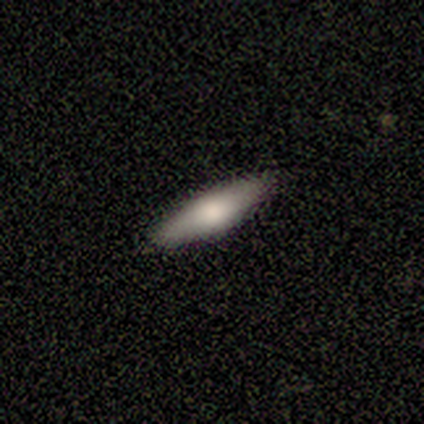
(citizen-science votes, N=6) Smooth or featured: smooth — 50% (tied with featured or disk — 50%)
How rounded: cigar-shaped — 67% (in between — 33%)
Merging: none — 83% (minor disturbance — 17%)